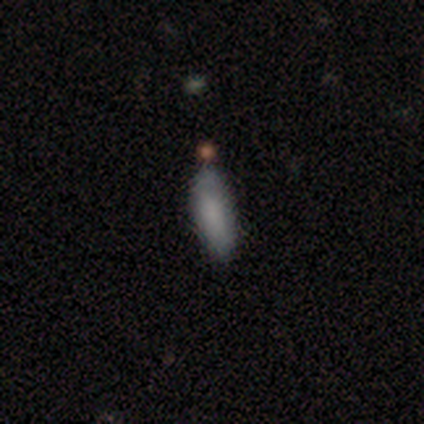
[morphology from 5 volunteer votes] This is clearly a smooth galaxy (80%). How rounded: possibly in between (50%, tied with cigar-shaped). Merging: clearly none (80%).